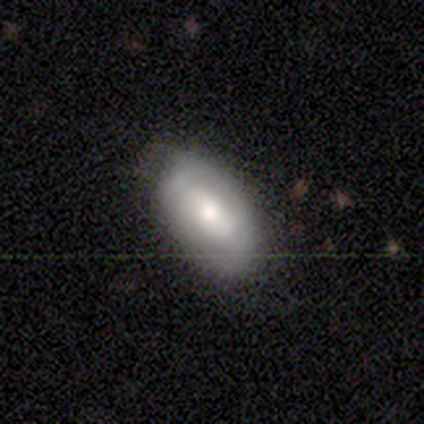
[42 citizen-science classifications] smooth_or_featured: smooth (p=0.55) [alt: featured or disk p=0.40]
how_rounded: in between (p=0.96) [alt: round p=0.04]
merging: none (p=0.70) [alt: minor disturbance p=0.23]